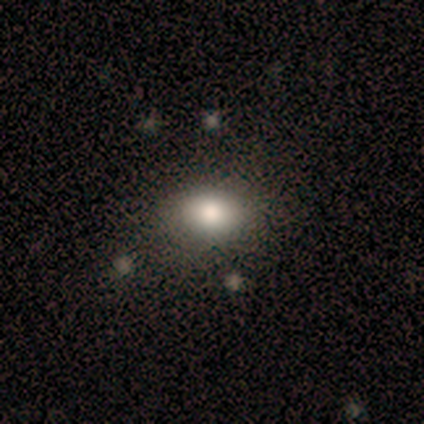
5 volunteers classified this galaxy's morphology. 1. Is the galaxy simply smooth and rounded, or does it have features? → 60% smooth, 40% star or artifact, 0% featured or disk.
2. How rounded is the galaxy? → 67% in between, 33% round, 0% cigar-shaped.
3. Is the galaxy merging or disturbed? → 100% none, 0% minor disturbance, 0% major disturbance, 0% merger.